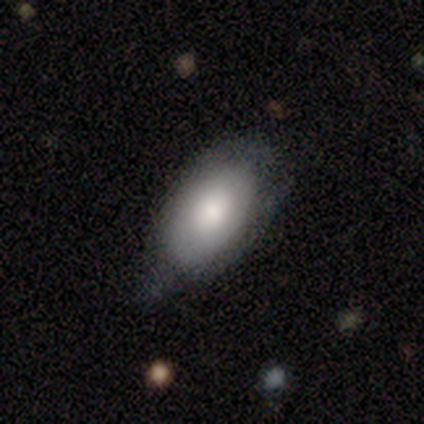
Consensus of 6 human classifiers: smooth_or_featured: smooth (p=0.67) [alt: featured or disk p=0.33]
how_rounded: in between (p=1.00)
merging: none (p=0.50) [tied with: minor disturbance p=0.50]